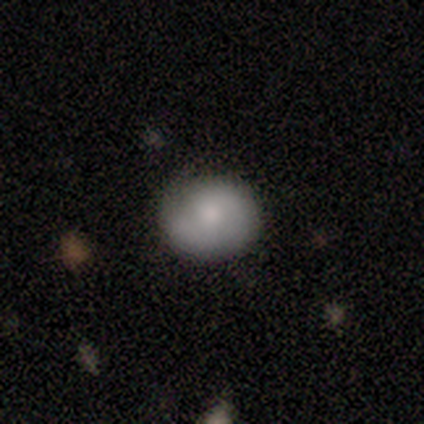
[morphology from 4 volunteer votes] Smooth or featured: smooth — 75% (featured or disk — 25%)
How rounded: round — 67% (in between — 33%)
Merging: none — 75% (minor disturbance — 25%)